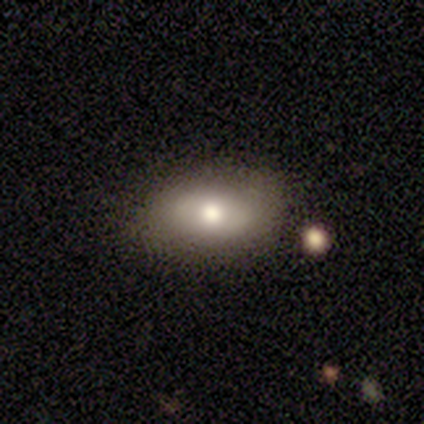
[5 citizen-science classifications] This appears to be a smooth galaxy with no disk features (80%) that is in between round and cigar-shaped (100%). Merging: none (80%).